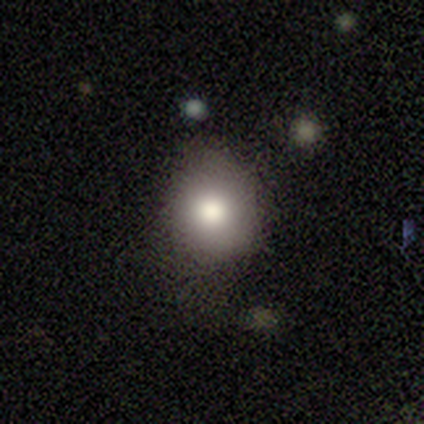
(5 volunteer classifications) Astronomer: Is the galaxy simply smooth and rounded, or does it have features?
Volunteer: smooth — 100%.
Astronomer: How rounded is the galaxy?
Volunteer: round — 60% (runner-up: in between, 40%).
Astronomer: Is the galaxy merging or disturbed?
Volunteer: none — 60%.